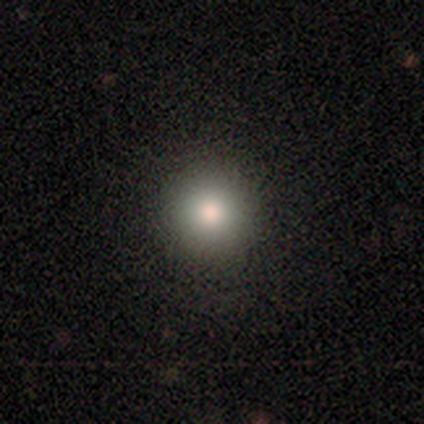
Q: Smooth or featured?
A: smooth (79%); runner-up: featured or disk (13%)
Q: How rounded?
A: round (100%)
Q: Merging?
A: none (91%); runner-up: major disturbance (6%)